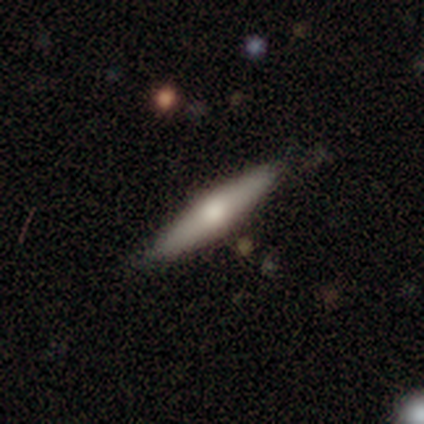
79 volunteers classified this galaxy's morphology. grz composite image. It shows a smooth galaxy with no disk features (54%) that is cigar-shaped (84%). Merging: none (57%).